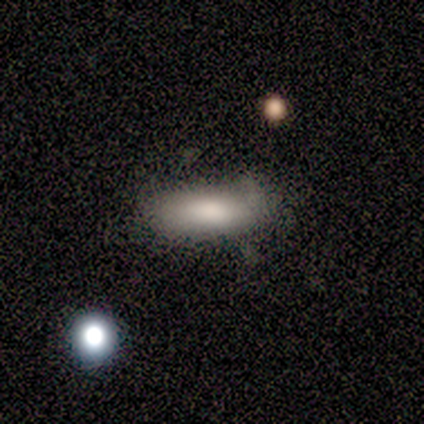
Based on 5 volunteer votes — Smooth or featured?
  - smooth: 100% *
  - featured or disk: 0%
  - star or artifact: 0%
How rounded?
  - in between: 80% *
  - cigar-shaped: 20%
  - round: 0%
Merging?
  - minor disturbance: 60% *
  - none: 20%
  - major disturbance: 20%
  - merger: 0%